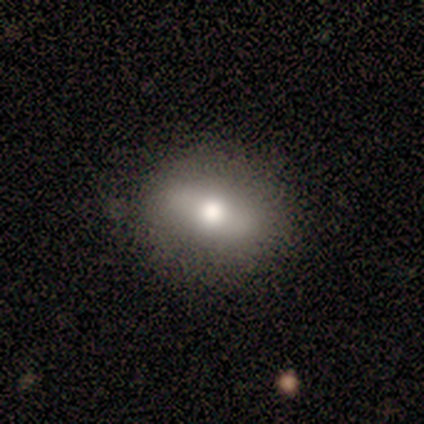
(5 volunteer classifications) Volunteers were most divided on "how rounded": in between: 80%, round: 20%, cigar-shaped: 0%. More confident: smooth or featured — smooth (100%); merging — none (80%).